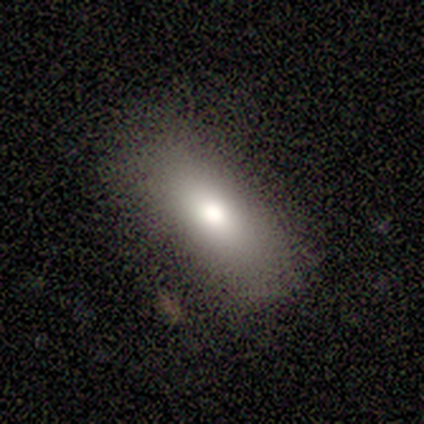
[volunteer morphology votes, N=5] Smooth or featured? smooth (60%)
How rounded? in between (67%)
Merging? none (40%, tied with minor disturbance)